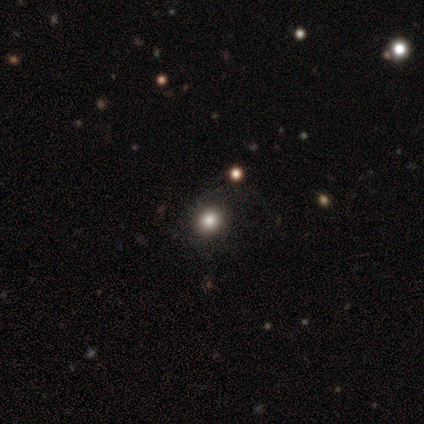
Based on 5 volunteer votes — Smooth or featured?
  - smooth: 40% * (tied)
  - featured or disk: 40% * (tied)
  - star or artifact: 20%
How rounded?
  - round: 100% *
  - in between: 0%
  - cigar-shaped: 0%
Merging?
  - none: 50% * (tied)
  - major disturbance: 50% * (tied)
  - minor disturbance: 0%
  - merger: 0%